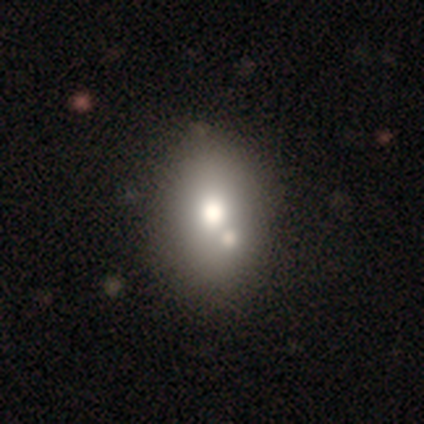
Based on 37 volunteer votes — Overall: smooth (70%). How rounded: in between (73%). Merging: none (56%; merger 26%).